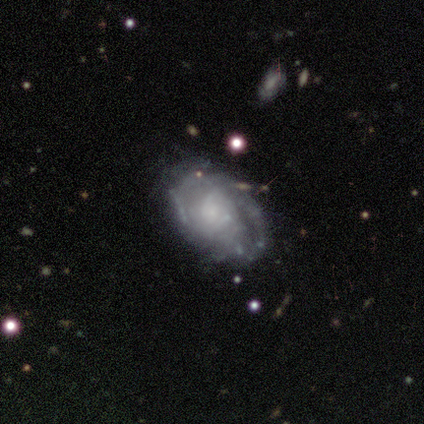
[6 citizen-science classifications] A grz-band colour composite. It shows a featured or disk galaxy (67%) with no bar (100%), tight (100%) spiral arms (50%, tied with no) and a small central bulge (50%, tied with none). Merging: none (67%).